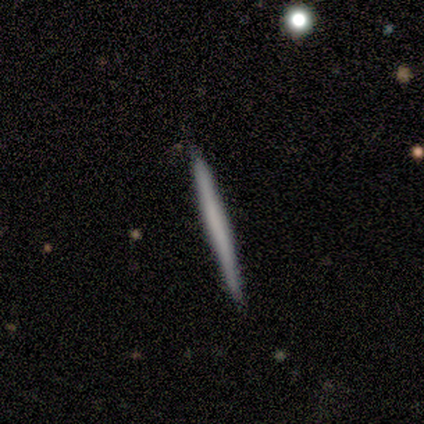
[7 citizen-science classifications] This is possibly a featured or disk galaxy (57%). It is clearly viewed edge-on (100%). Edge-on bulge: likely none (75%). Merging: clearly none (100%).